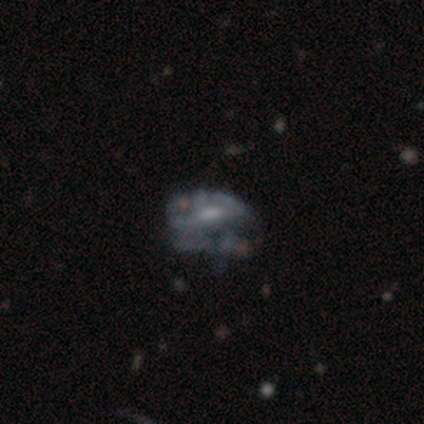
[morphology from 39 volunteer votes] smooth_or_featured: featured or disk (p=0.49) [alt: smooth p=0.33]
disk_edge_on: no (p=1.00)
bar: weak (p=0.53) [alt: no p=0.47]
has_spiral_arms: no (p=0.79) [alt: yes p=0.21]
bulge_size: small (p=0.47) [alt: moderate p=0.42]
merging: major disturbance (p=0.53) [alt: minor disturbance p=0.25]